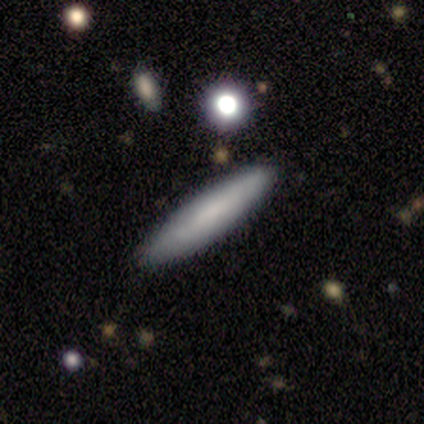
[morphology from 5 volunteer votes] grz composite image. It shows a featured or disk galaxy (60%) viewed edge-on (100%) with no central bulge (67%). Merging: none (80%).